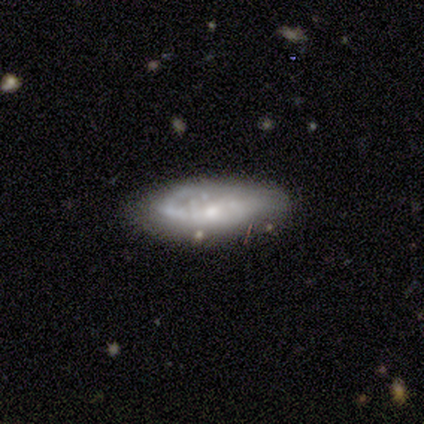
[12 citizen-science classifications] This is likely a featured or disk galaxy (67%). It is clearly not viewed edge-on (100%). Bar: likely no (62%). Spiral arm pattern: possibly yes (50%, tied with no). Spiral arm count: likely 2 (75%). Spiral winding: possibly medium (50%). Central bulge: possibly moderate (50%, tied with small). Merging: likely none (67%).